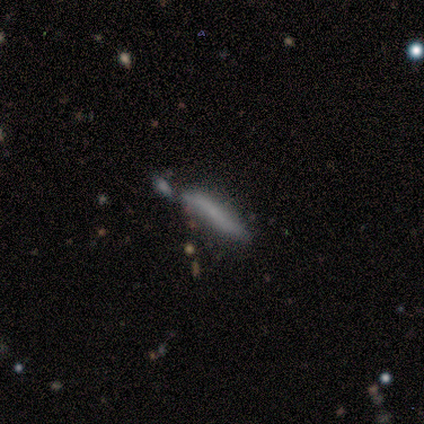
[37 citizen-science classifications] Volunteers were most divided on "merging": merger: 44%, none: 33%, minor disturbance: 19%, major disturbance: 3%. More confident: how rounded — cigar-shaped (100%); smooth or featured — smooth (57%).